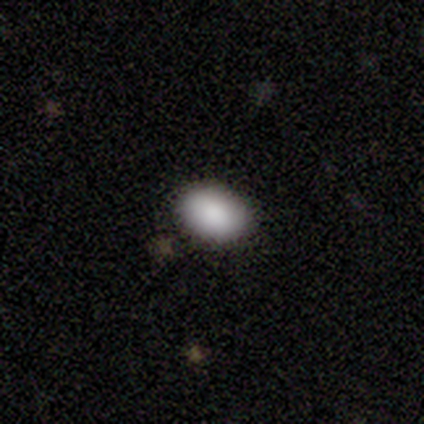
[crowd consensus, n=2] Morphology: type=smooth (100%); roundness=in between (100%); merging=none (100%).